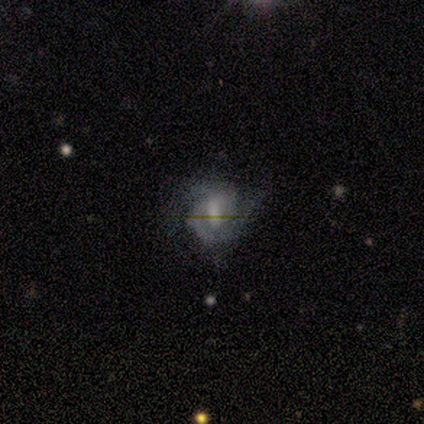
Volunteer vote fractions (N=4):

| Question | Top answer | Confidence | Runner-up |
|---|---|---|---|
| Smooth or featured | featured or disk | 50% | smooth (25%) |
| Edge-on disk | no | 100% | — |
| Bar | weak | 50% | tied: no (50%) |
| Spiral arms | yes | 100% | — |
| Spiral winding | tight | 100% | — |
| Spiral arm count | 2 | 100% | — |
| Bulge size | small | 100% | — |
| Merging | none | 67% | minor disturbance (33%) |